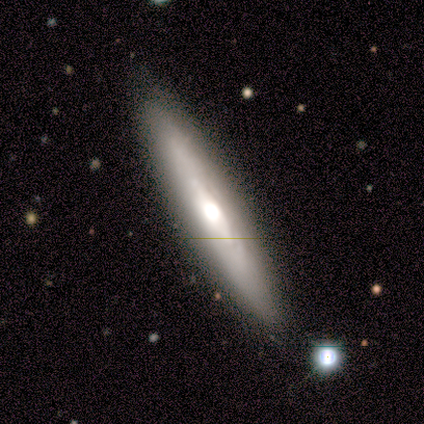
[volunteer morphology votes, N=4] This is likely a featured or disk galaxy (75%). It is clearly viewed edge-on (100%). Edge-on bulge: clearly rounded (100%). Merging: clearly none (100%).